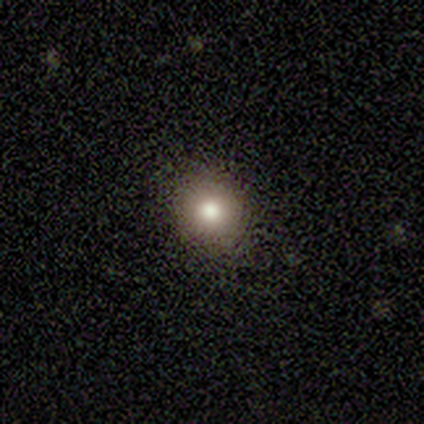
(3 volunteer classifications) Smooth or featured? 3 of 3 (100%) said smooth. How rounded? 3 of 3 (100%) said round. Merging? 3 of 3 (100%) said none.